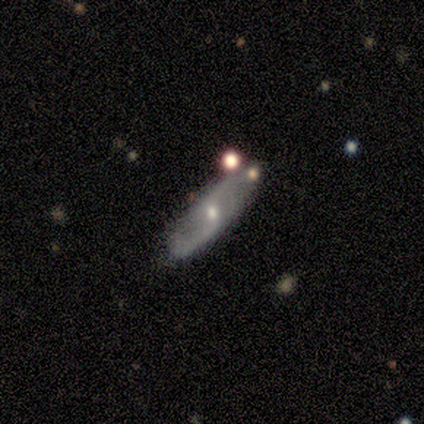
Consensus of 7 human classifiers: Smooth or featured: featured or disk — 71% (smooth — 29%)
Edge-on disk: no — 100%
Bar: weak — 40% (tied with no — 40%)
Spiral arms: yes — 100%
Spiral winding: loose — 80% (tight — 20%)
Spiral arm count: 2 — 80% (can't tell — 20%)
Bulge size: small — 60% (moderate — 40%)
Merging: none — 86% (minor disturbance — 14%)